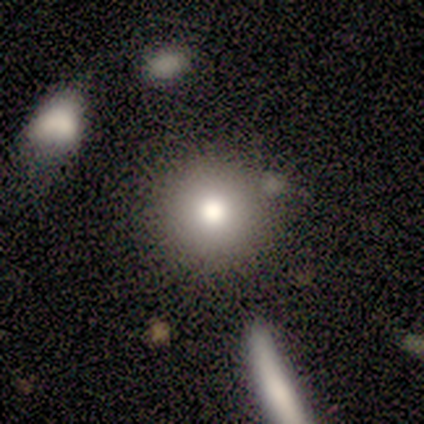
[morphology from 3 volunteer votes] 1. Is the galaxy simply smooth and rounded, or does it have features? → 100% smooth, 0% featured or disk, 0% star or artifact.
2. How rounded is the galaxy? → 100% round, 0% in between, 0% cigar-shaped.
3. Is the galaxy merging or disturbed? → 100% none, 0% minor disturbance, 0% major disturbance, 0% merger.